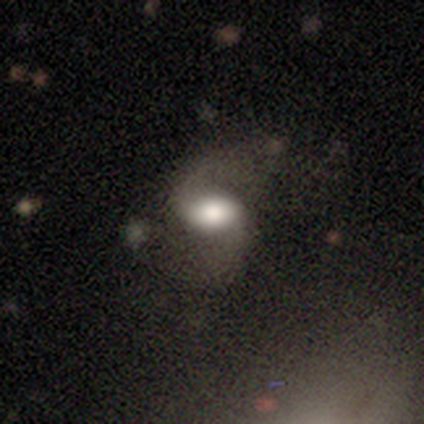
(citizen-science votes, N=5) Overall: featured or disk (60%; smooth 40%). Edge-on disk: no (100%). Bar: strong (33%, tied with weak and no). Spiral arms: yes (100%). Spiral arm count: 2 (100%). Spiral winding: medium (67%; loose 33%). Bulge size: dominant (33%, tied with large and moderate). Merging: none (60%; minor disturbance 20%).